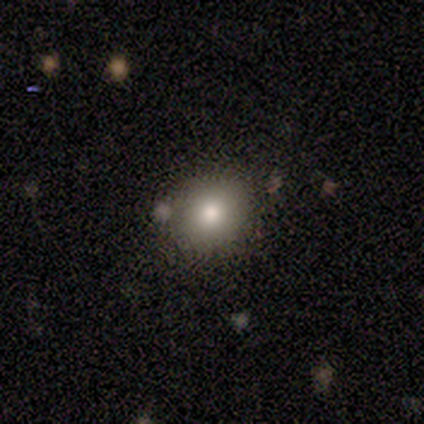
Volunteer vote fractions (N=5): A smooth galaxy with no disk features (100%) that is round (80%).

Vote fractions:
- Smooth or featured? smooth: 100% / featured or disk: 0% / star or artifact: 0%
- How rounded? round: 80% / in between: 20% / cigar-shaped: 0%
- Merging? none: 100% / minor disturbance: 0% / major disturbance: 0% / merger: 0%